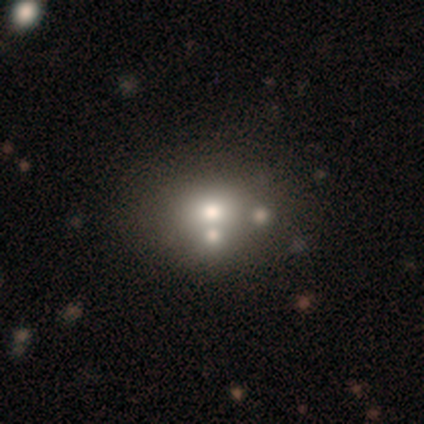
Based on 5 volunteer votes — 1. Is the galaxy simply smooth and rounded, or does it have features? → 80% smooth, 20% featured or disk, 0% star or artifact.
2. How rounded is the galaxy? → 75% round, 25% in between, 0% cigar-shaped.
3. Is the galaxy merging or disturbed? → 60% none, 20% minor disturbance, 20% merger, 0% major disturbance.